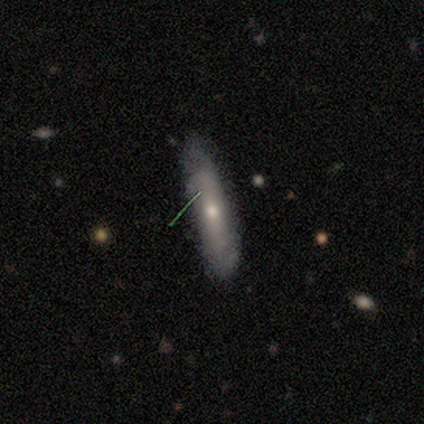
A smooth galaxy with no disk features (80%) that is cigar-shaped (100%). Merging: none (100%).